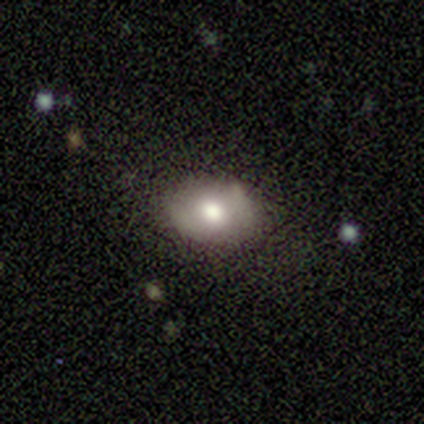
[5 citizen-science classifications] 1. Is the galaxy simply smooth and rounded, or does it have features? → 80% smooth, 20% star or artifact, 0% featured or disk.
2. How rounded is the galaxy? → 100% in between, 0% round, 0% cigar-shaped.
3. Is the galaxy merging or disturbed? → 50% none, 25% minor disturbance, 25% major disturbance, 0% merger.